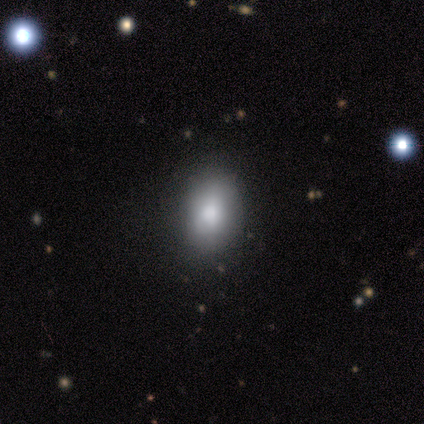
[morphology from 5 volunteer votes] Smooth or featured? 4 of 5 (80%) said smooth. How rounded? 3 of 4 (75%) said in between. Merging? 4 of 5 (80%) said none.